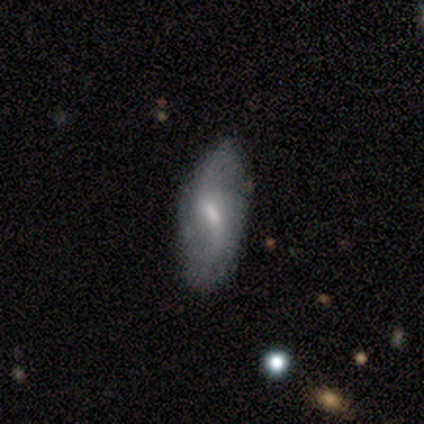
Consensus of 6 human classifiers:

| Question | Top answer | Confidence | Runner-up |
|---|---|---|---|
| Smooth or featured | featured or disk | 83% | smooth (17%) |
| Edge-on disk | no | 100% | — |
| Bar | no | 60% | weak (40%) |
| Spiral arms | no | 60% | yes (40%) |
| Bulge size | moderate | 60% | small (20%) |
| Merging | none | 83% | minor disturbance (17%) |